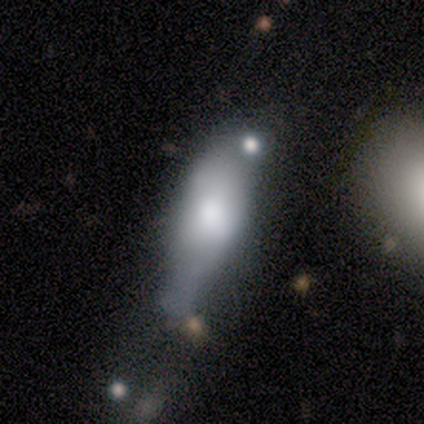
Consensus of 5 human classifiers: This is clearly a smooth galaxy (100%). How rounded: clearly in between (100%). Merging: clearly minor disturbance (80%).